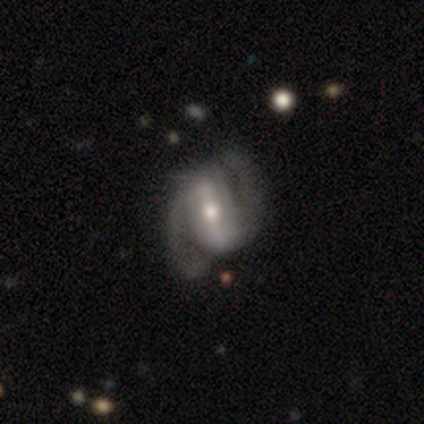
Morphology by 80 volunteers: featured or disk 91%, star or artifact 5%, smooth 4%. Down the decision tree: edge-on disk — no (99%); bar — strong (82%); spiral arms — yes (94%); spiral arm count — 2 (99%); spiral winding — medium (49%); bulge size — moderate (74%); merging — none (34%).